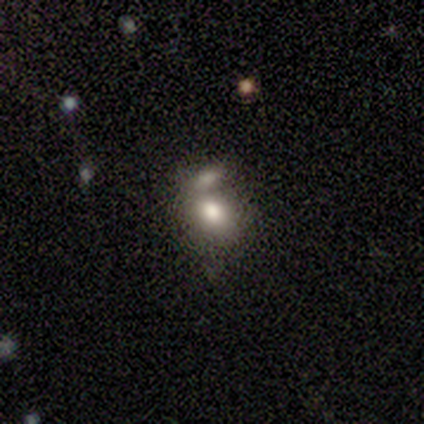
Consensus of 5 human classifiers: Smooth or featured? 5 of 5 (100%) said smooth. How rounded? 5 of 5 (100%) said in between. Merging? 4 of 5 (80%) said merger.